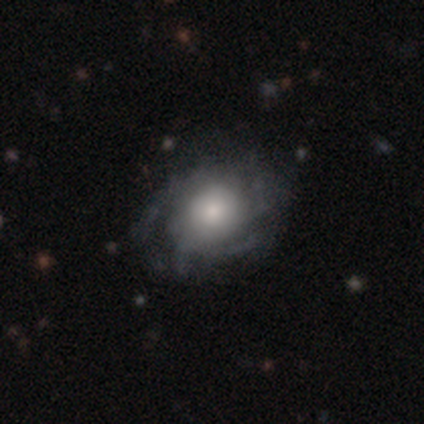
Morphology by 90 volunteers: This appears to be a featured or disk galaxy (64%) with no bar (89%), tight (66%) spiral arms (80%) and a moderate central bulge (44%). Merging: none (69%).